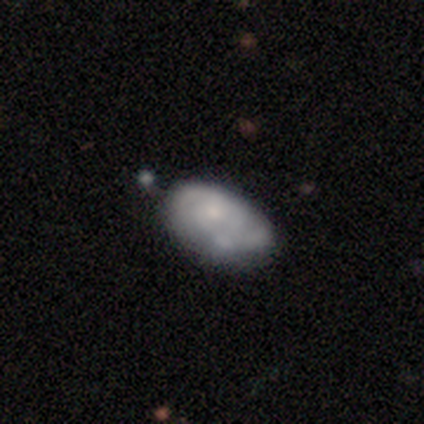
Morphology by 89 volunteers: Overall: smooth (52%; featured or disk 42%). How rounded: in between (91%). Merging: none (49%; minor disturbance 27%).